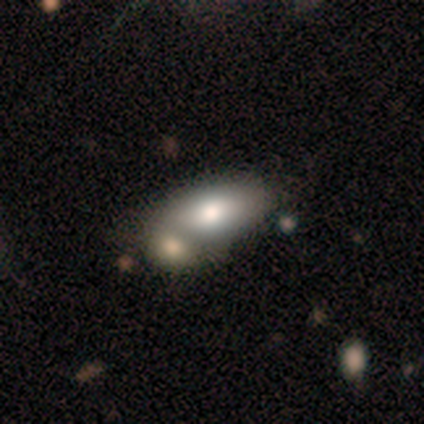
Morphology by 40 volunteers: Q: Smooth or featured?
A: smooth (72%); runner-up: featured or disk (22%)
Q: How rounded?
A: in between (97%); runner-up: cigar-shaped (3%)
Q: Merging?
A: merger (58%); runner-up: none (21%)